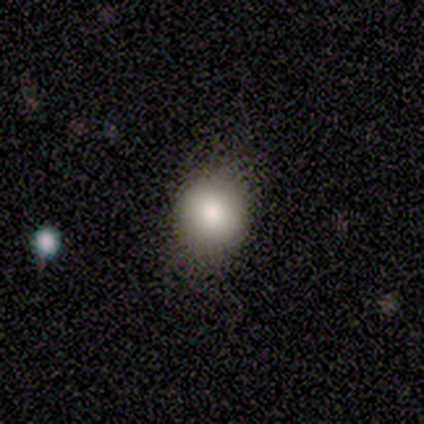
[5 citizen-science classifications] Overall: smooth (80%). How rounded: round (75%). Merging: none (80%).